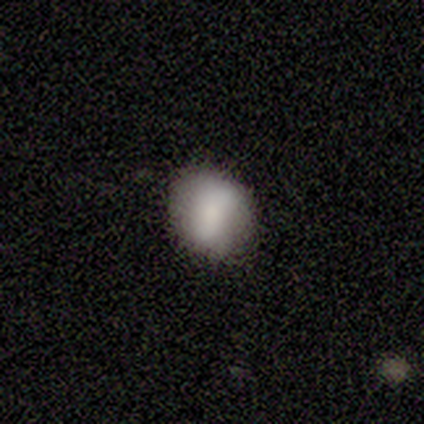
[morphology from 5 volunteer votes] Overall: smooth (100%). How rounded: in between (60%; round 40%). Merging: none (100%).